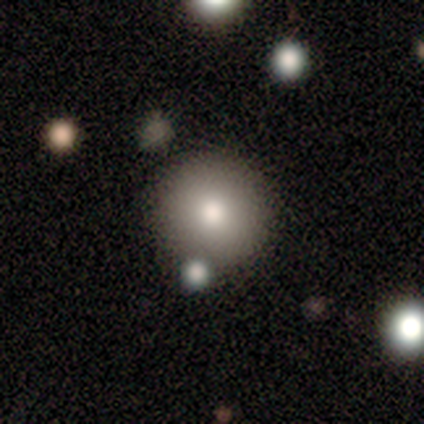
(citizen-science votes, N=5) Smooth or featured: smooth — 100%
How rounded: round — 100%
Merging: none — 80% (minor disturbance — 20%)